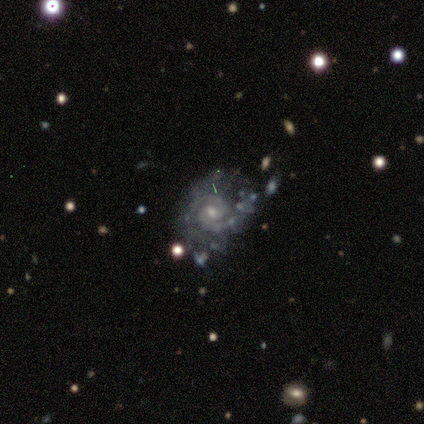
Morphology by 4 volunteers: smooth_or_featured: featured or disk (p=1.00)
disk_edge_on: no (p=1.00)
bar: no (p=0.75) [alt: weak p=0.25]
has_spiral_arms: yes (p=1.00)
spiral_winding: medium (p=0.75) [alt: tight p=0.25]
spiral_arm_count: 2 (p=1.00)
bulge_size: moderate (p=0.50) [tied with: small p=0.50]
merging: minor disturbance (p=0.75) [alt: none p=0.25]